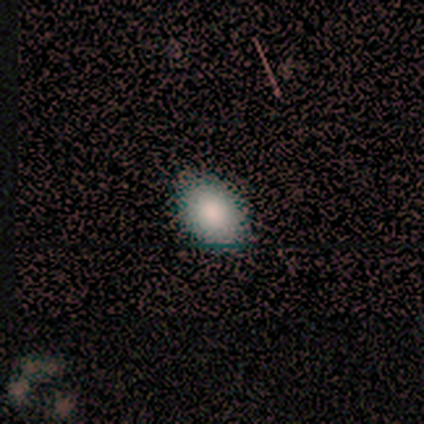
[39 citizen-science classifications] smooth 82%, star or artifact 13%, featured or disk 5%. Down the decision tree: how rounded — in between (84%); merging — none (85%).